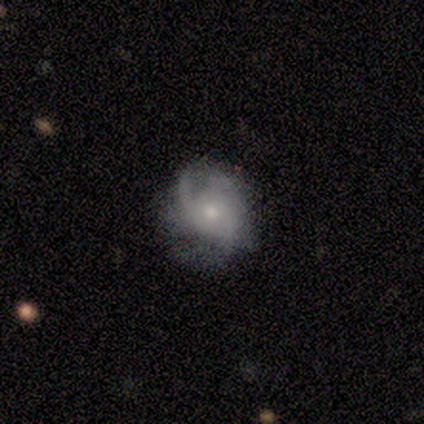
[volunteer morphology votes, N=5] Overall: featured or disk (60%; smooth 40%). Edge-on disk: no (100%). Bar: no (100%). Spiral arms: yes (100%). Spiral arm count: can't tell (67%; 3 33%). Spiral winding: medium (100%). Bulge size: moderate (67%; small 33%). Merging: none (60%; minor disturbance 40%).